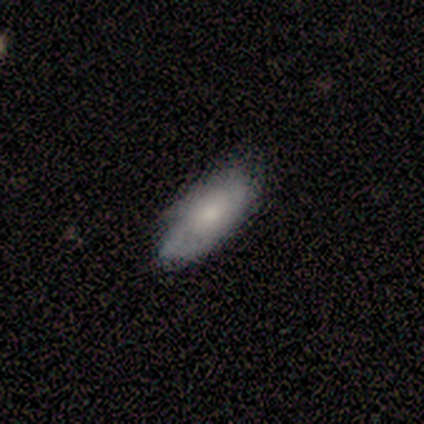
This appears to be a smooth galaxy with no disk features (50%, tied with featured or disk) that is in between round and cigar-shaped (100%). Merging: none (67%).